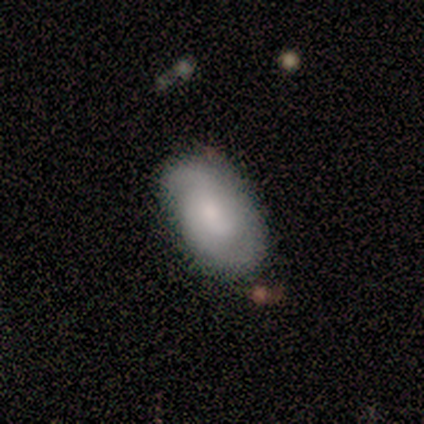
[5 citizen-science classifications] This appears to be a smooth galaxy with no disk features (60%) that is in between round and cigar-shaped (100%). Merging: none (80%).